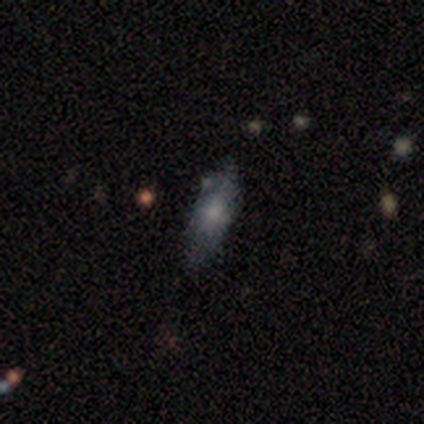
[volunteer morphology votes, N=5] A smooth galaxy with no disk features (100%) that is in between round and cigar-shaped (100%). Merging: none (100%).